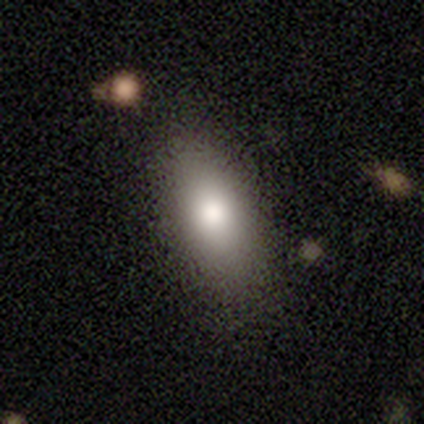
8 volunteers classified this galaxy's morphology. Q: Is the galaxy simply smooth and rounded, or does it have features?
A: smooth — 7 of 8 (88%).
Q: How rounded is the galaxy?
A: in between — 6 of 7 (86%).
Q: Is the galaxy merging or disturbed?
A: none — 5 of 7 (71%).